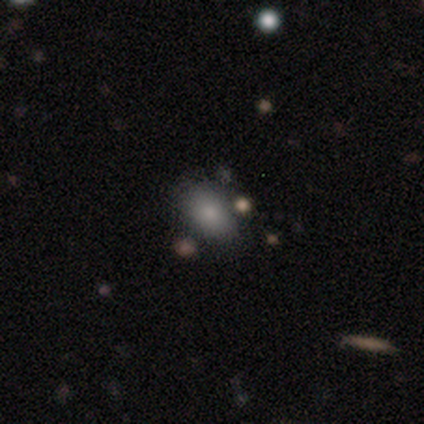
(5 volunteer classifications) Smooth or featured?
  - smooth: 60% *
  - featured or disk: 20%
  - star or artifact: 20%
How rounded?
  - in between: 100% *
  - round: 0%
  - cigar-shaped: 0%
Merging?
  - minor disturbance: 50% *
  - none: 25%
  - merger: 25%
  - major disturbance: 0%